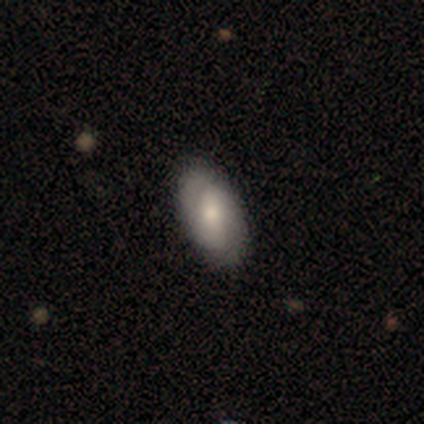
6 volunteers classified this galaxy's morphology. smooth 50% (tied), featured or disk 50% (tied), star or artifact 0%. Down the decision tree: how rounded — in between (100%); merging — none (83%).